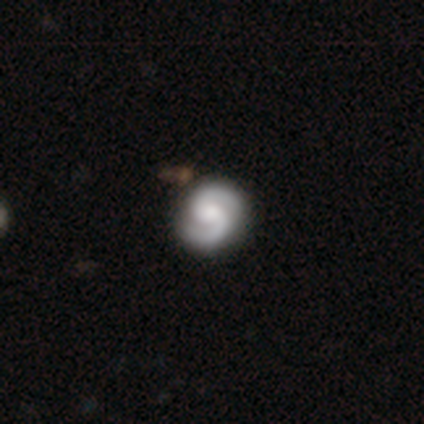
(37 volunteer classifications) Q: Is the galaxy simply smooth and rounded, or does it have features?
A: featured or disk — 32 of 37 (86%).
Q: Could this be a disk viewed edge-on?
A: no — 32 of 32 (100%).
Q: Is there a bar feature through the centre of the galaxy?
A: no — 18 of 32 (56%).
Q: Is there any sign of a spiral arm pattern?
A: yes — 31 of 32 (97%).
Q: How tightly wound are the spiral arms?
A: tight — 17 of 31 (55%).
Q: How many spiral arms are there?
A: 2 — 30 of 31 (97%).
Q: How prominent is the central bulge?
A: moderate — 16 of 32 (50%).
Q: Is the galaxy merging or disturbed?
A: none — 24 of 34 (71%).